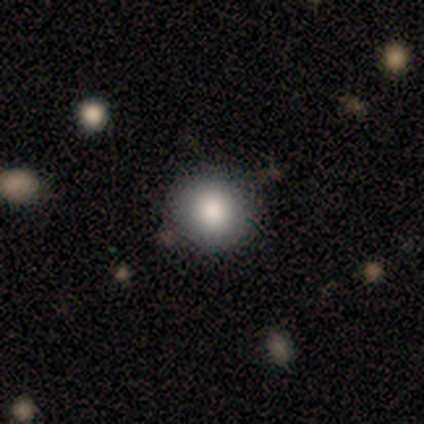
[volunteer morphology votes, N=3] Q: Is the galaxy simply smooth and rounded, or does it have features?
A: smooth — 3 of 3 (100%).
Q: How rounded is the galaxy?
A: round — 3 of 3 (100%).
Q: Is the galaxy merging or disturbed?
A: none — 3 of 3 (100%).